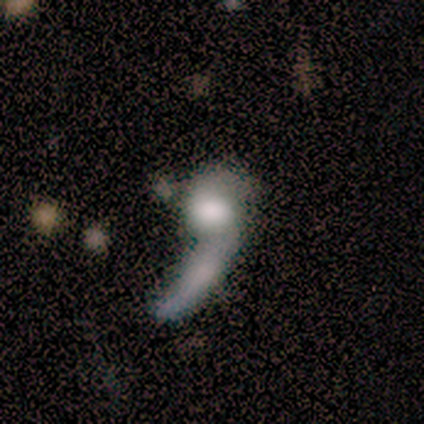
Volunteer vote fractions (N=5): Q: Smooth or featured?
A: star or artifact (60%); runner-up: featured or disk (40%)